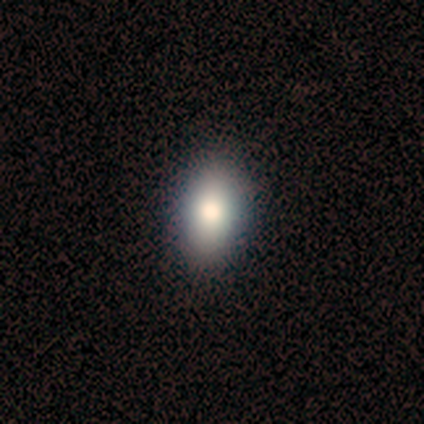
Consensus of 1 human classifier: A smooth galaxy with no disk features (100%) that is in between round and cigar-shaped (100%).

Vote fractions:
- Smooth or featured? smooth: 100% / featured or disk: 0% / star or artifact: 0%
- How rounded? in between: 100% / round: 0% / cigar-shaped: 0%
- Merging? none: 100% / minor disturbance: 0% / major disturbance: 0% / merger: 0%